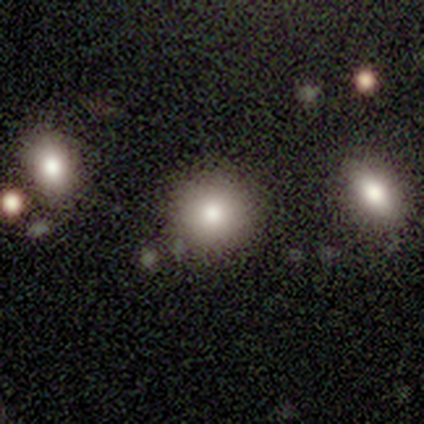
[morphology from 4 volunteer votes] type=smooth (50%, tied with featured or disk); roundness=round (100%); merging=none (75%).